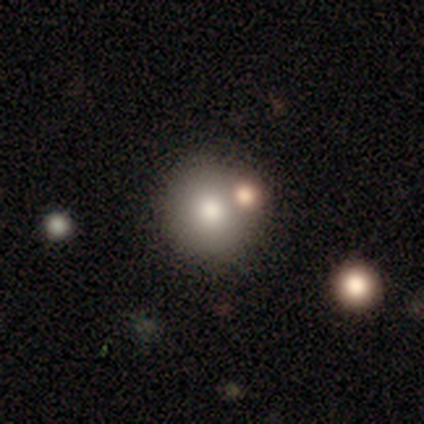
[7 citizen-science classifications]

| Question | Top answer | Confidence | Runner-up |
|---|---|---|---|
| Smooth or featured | smooth | 43% | featured or disk (29%) |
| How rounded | round | 67% | in between (33%) |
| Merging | none | 40% | tied: merger (40%) |